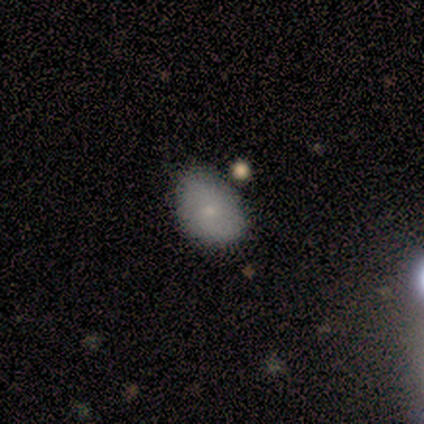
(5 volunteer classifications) Smooth or featured? smooth (100%)
How rounded? in between (80%)
Merging? none (60%)